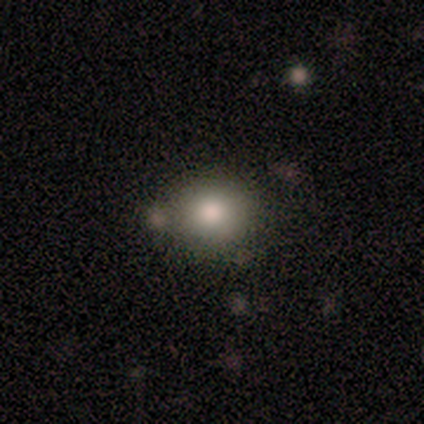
This is clearly a smooth galaxy (100%). How rounded: clearly round (80%). Merging: likely none (60%).